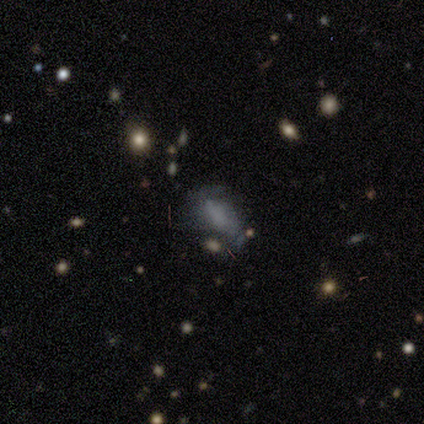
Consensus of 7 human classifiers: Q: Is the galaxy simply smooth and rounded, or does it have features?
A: smooth — 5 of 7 (71%).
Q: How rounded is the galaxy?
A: in between — 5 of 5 (100%).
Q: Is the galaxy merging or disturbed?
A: minor disturbance — 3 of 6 (50%).